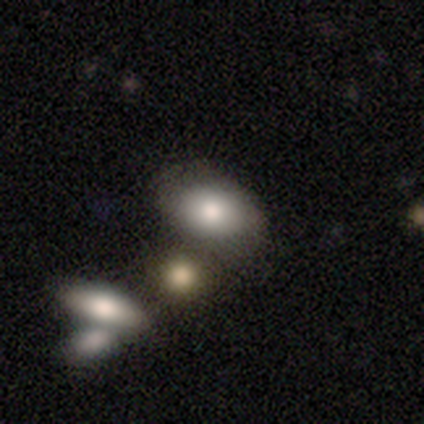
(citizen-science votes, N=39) smooth-or-featured: smooth: 77% | featured or disk: 15% | star or artifact: 8%
  how-rounded: in between: 90% | round: 10% | cigar-shaped: 0%
  merging: merger: 50% | none: 0% | minor disturbance: 0% | major disturbance: 0%